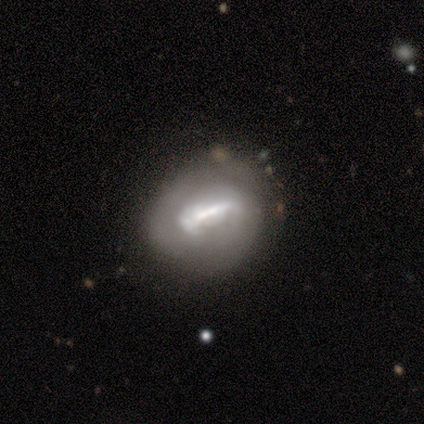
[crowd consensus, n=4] smooth 50%, featured or disk 25%, star or artifact 25%. Down the decision tree: how rounded — in between (100%); merging — none (33%, tied with minor disturbance and merger).